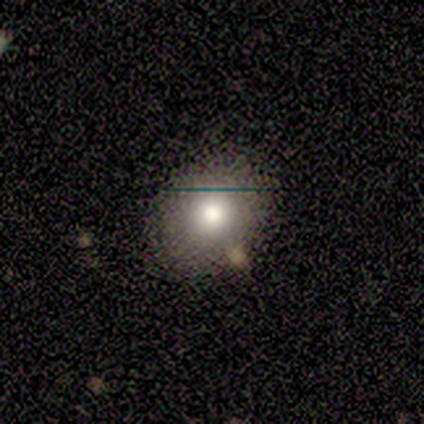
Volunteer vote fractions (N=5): Smooth or featured? 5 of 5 (100%) said smooth. How rounded? 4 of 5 (80%) said round. Merging? 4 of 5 (80%) said none.